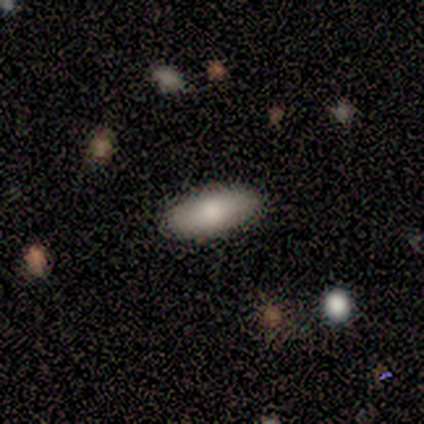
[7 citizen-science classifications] smooth 86%, featured or disk 14%, star or artifact 0%. Down the decision tree: how rounded — in between (100%); merging — none (86%).